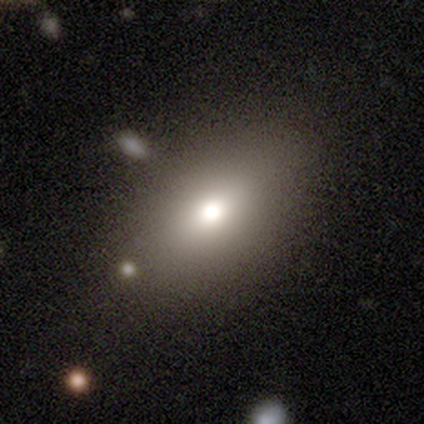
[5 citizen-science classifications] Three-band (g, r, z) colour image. It shows a smooth galaxy with no disk features (100%) that is round (40%, tied with in between). Merging: none (100%).